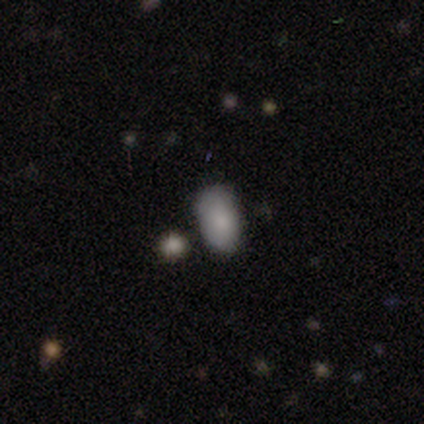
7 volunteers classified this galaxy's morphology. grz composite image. It shows a smooth galaxy with no disk features (100%) that is in between round and cigar-shaped (100%). Merging: none (71%).